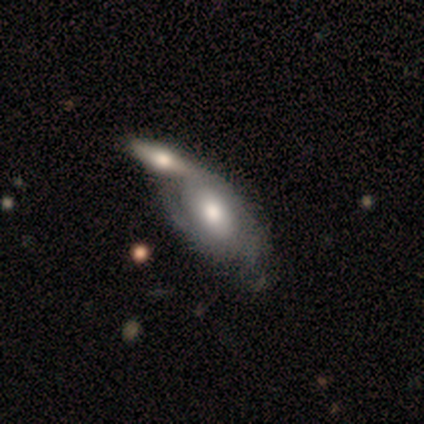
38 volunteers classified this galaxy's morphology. Smooth or featured?
  - featured or disk: 58% *
  - smooth: 37%
  - star or artifact: 5%
Edge-on disk?
  - no: 91% *
  - yes: 9%
Bar?
  - no: 80% *
  - weak: 15%
  - strong: 5%
Spiral arms?
  - yes: 55% *
  - no: 45%
Spiral winding?
  - tight: 55% *
  - medium: 36%
  - loose: 9%
Spiral arm count?
  - 2: 55% *
  - can't tell: 36%
  - 3: 9%
  - 1: 0%
  - 4: 0%
  - more than 4: 0%
Bulge size?
  - moderate: 75% *
  - large: 15%
  - none: 10%
  - dominant: 0%
  - small: 0%
Merging?
  - merger: 61% *
  - none: 25%
  - minor disturbance: 3%
  - major disturbance: 3%